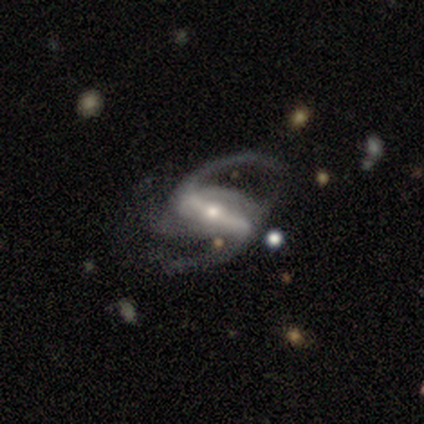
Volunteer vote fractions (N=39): smooth-or-featured: featured or disk: 100% | smooth: 0% | star or artifact: 0%
  disk-edge-on: no: 95% | yes: 5%
    bar: strong: 76% | weak: 16% | no: 8%
    has-spiral-arms: yes: 100% | no: 0%
      spiral-winding: loose: 59% | medium: 35% | tight: 5%
      spiral-arm-count: 2: 92% | 3: 3% | 4: 3% | can't tell: 3% | 1: 0% | more than 4: 0%
    bulge-size: small: 59% | moderate: 41% | dominant: 0% | large: 0% | none: 0%
  merging: none: 46% | minor disturbance: 28% | major disturbance: 23% | merger: 3%